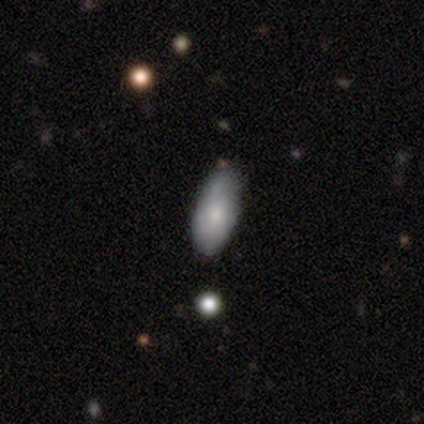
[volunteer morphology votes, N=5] smooth 80%, featured or disk 20%, star or artifact 0%. Down the decision tree: how rounded — in between (75%); merging — none (100%).